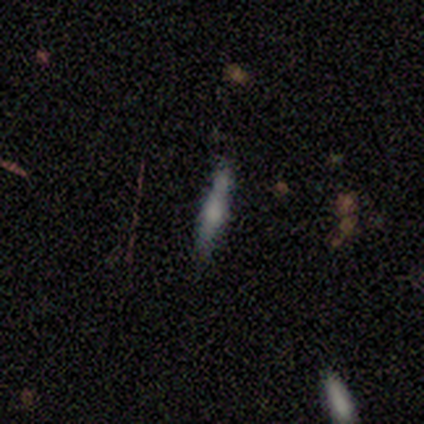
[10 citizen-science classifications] This appears to be a smooth galaxy with no disk features (50%) that is cigar-shaped (100%). Merging: none (67%).